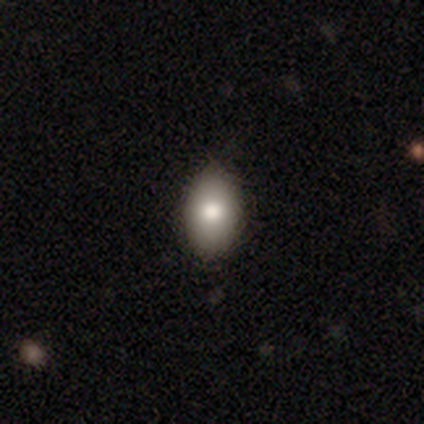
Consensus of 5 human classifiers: Q: Smooth or featured?
A: smooth (80%); runner-up: featured or disk (20%)
Q: How rounded?
A: in between (100%)
Q: Merging?
A: none (100%)